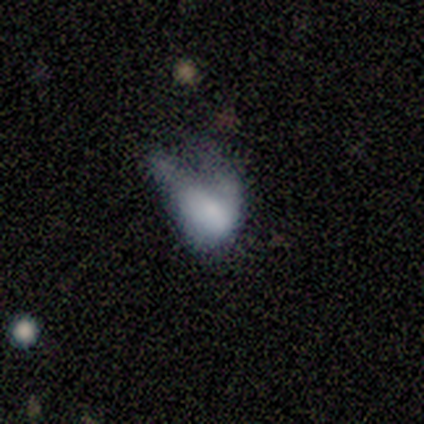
Smooth or featured: smooth — 40% (tied with featured or disk — 40%)
How rounded: in between — 100%
Merging: major disturbance — 75% (minor disturbance — 25%)